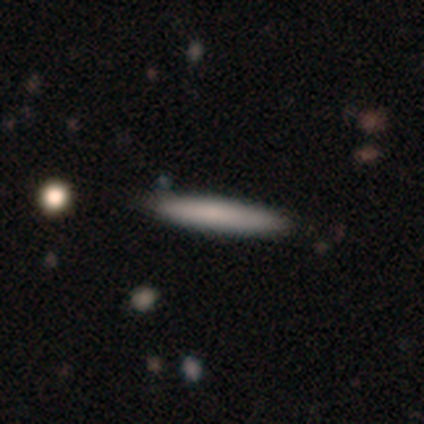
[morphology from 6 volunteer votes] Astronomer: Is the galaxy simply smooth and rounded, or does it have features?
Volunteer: smooth — 67%.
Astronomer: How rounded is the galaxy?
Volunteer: cigar-shaped — 100%.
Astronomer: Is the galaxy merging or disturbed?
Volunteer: none — 100%.